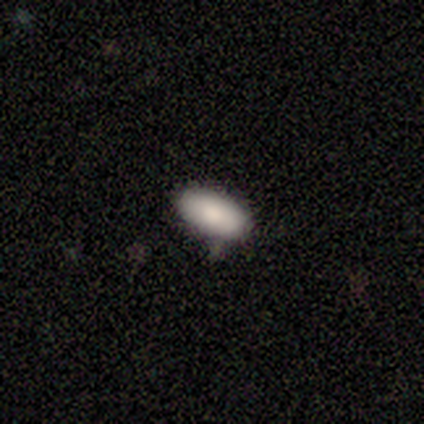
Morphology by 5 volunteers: This appears to be a smooth galaxy with no disk features (60%) that is in between round and cigar-shaped (100%). Merging: none (100%).